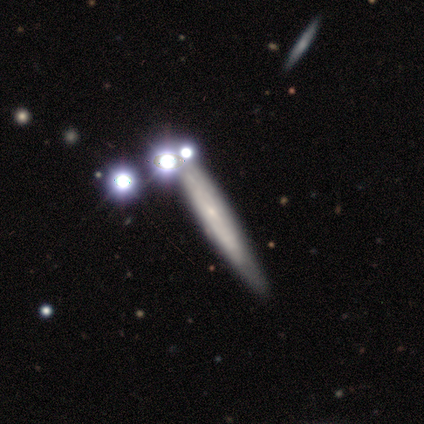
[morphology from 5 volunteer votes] Smooth or featured? 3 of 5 (60%) said star or artifact.